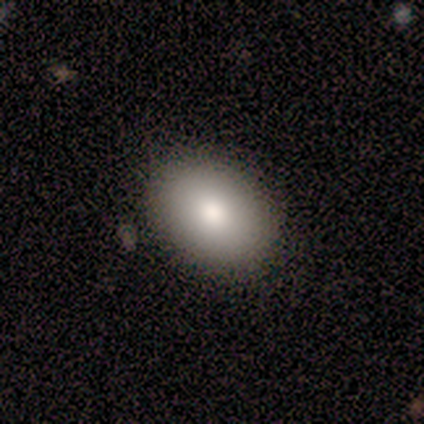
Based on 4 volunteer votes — Smooth or featured? 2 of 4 (50%) said smooth. How rounded? 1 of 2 (50%, tied with in between) said round. Merging? 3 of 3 (100%) said none.